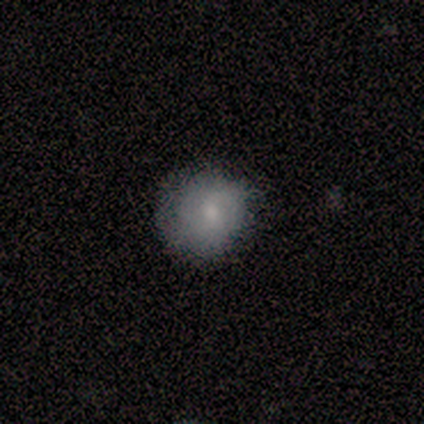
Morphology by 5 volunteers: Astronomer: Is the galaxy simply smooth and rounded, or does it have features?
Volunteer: featured or disk — 40%, tied with star or artifact at 40%.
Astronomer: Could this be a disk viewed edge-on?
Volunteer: no — 100%.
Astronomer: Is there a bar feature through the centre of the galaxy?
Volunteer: no — 100%.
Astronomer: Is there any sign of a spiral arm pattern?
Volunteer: yes — 50%, tied with no at 50%.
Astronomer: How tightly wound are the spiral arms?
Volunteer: medium — 100%.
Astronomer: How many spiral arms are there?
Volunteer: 3 — 100%.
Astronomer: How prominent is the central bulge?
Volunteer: dominant — 50%, tied with small at 50%.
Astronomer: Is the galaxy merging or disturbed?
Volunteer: none — 67%.